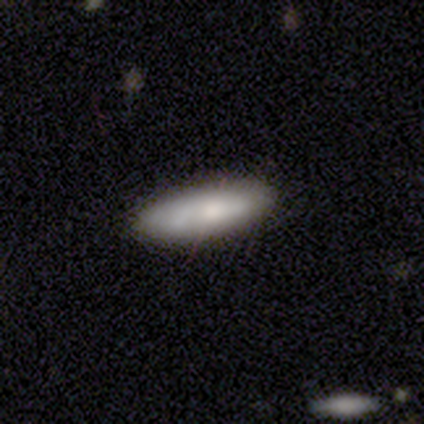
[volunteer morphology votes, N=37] This appears to be a smooth galaxy with no disk features (78%) that is cigar-shaped (62%). Merging: none (85%).